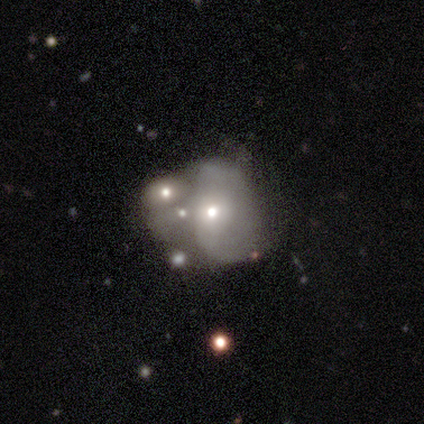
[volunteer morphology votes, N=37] Q: Smooth or featured?
A: featured or disk (54%); runner-up: smooth (35%)
Q: Edge-on disk?
A: no (90%); runner-up: yes (10%)
Q: Bar?
A: no (94%); runner-up: weak (6%)
Q: Spiral arms?
A: yes (50%); tied with: no (50%)
Q: Spiral winding?
A: loose (44%); runner-up: medium (33%)
Q: Spiral arm count?
A: 2 (44%); tied with: can't tell (44%)
Q: Bulge size?
A: moderate (50%); runner-up: small (39%)
Q: Merging?
A: merger (52%); runner-up: none (21%)